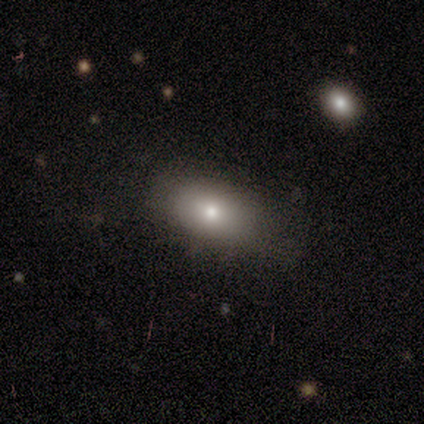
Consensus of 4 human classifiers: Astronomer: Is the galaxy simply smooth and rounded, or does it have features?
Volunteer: smooth — 100%.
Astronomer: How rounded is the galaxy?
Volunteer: in between — 100%.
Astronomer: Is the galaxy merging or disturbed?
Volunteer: none — 100%.